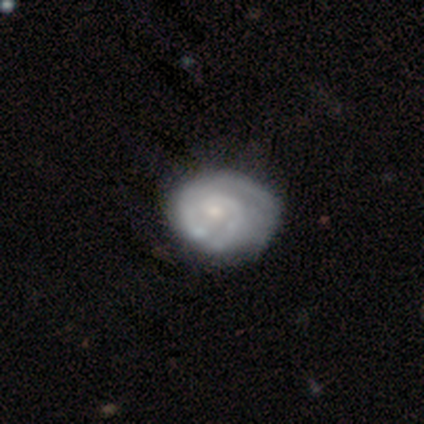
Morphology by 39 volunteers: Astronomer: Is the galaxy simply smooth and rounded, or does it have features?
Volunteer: featured or disk — 79%.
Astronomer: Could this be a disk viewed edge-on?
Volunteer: no — 100%.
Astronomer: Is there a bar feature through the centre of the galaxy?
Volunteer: no — 81%.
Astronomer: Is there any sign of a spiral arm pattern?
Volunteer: yes — 87%.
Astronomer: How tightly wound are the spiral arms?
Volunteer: tight — 74%.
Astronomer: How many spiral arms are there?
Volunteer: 1 — 37% (runner-up: 2, 33%).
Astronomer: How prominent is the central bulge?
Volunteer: small — 71%.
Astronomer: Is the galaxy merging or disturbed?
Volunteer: none — 35% (runner-up: minor disturbance, 24%).